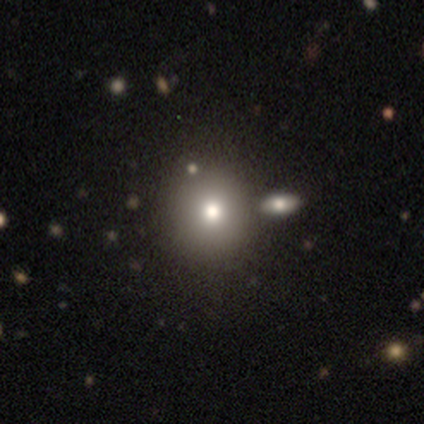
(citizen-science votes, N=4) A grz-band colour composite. It shows a smooth galaxy with no disk features (50%) that is round (100%). Merging: none (33%, tied with minor disturbance and merger).